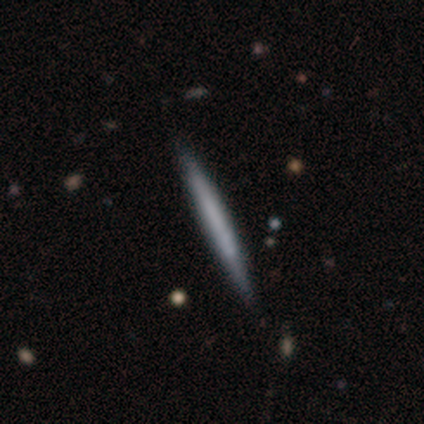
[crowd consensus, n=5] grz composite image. It shows a smooth galaxy with no disk features (80%) that is cigar-shaped (100%). Merging: none (100%).